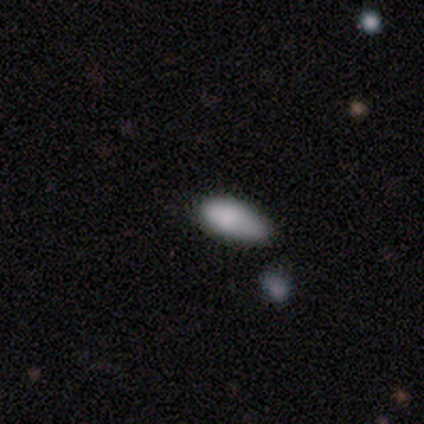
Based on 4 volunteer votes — Smooth or featured: smooth — 100%
How rounded: in between — 100%
Merging: minor disturbance — 75% (major disturbance — 25%)